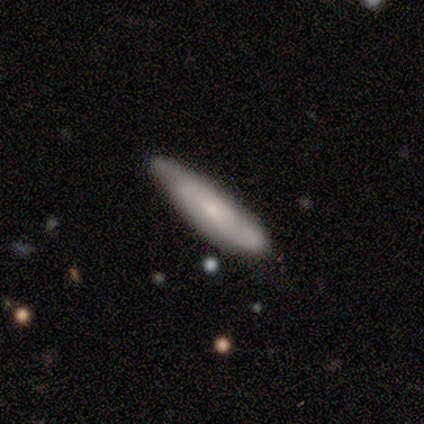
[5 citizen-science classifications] A featured or disk galaxy (80%) viewed edge-on (50%, tied with no) with no central bulge (100%). Merging: none (60%).